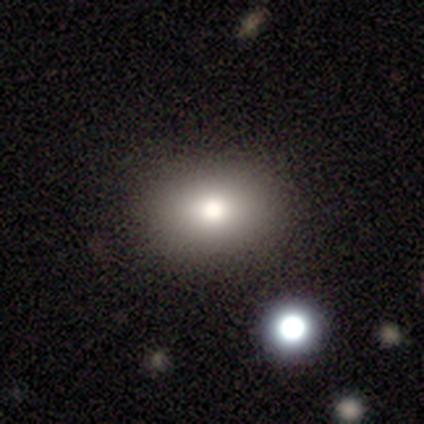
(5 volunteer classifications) Smooth or featured?
  - smooth: 100% *
  - featured or disk: 0%
  - star or artifact: 0%
How rounded?
  - in between: 60% *
  - round: 40%
  - cigar-shaped: 0%
Merging?
  - none: 80% *
  - minor disturbance: 20%
  - major disturbance: 0%
  - merger: 0%